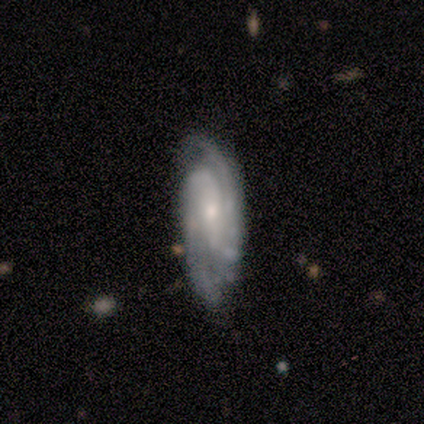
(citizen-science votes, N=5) smooth_or_featured: featured or disk (p=0.80) [alt: smooth p=0.20]
disk_edge_on: no (p=1.00)
bar: strong (p=0.50) [tied with: weak p=0.50]
has_spiral_arms: yes (p=1.00)
spiral_winding: tight (p=0.50) [tied with: medium p=0.50]
spiral_arm_count: 2 (p=1.00)
bulge_size: moderate (p=0.50) [tied with: small p=0.50]
merging: none (p=0.60) [alt: minor disturbance p=0.40]